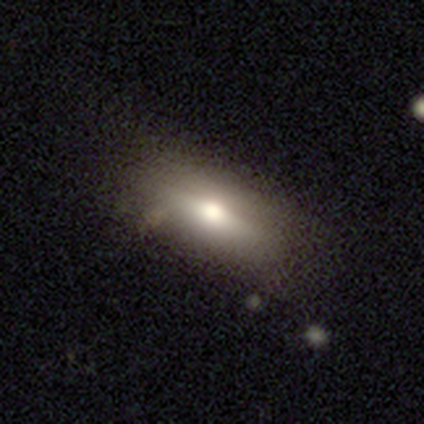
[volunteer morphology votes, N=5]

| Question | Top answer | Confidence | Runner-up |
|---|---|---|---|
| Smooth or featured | smooth | 60% | featured or disk (40%) |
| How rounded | in between | 67% | round (33%) |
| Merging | none | 80% | major disturbance (20%) |